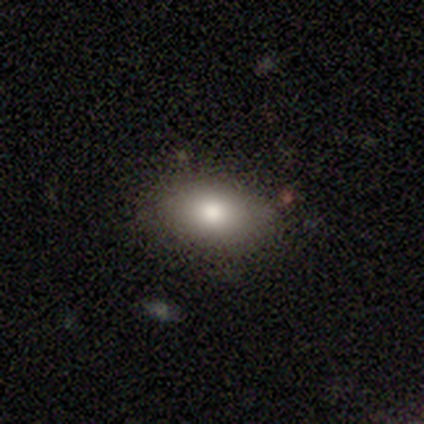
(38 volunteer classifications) Q: Smooth or featured?
A: smooth (76%); runner-up: featured or disk (18%)
Q: How rounded?
A: in between (90%); runner-up: round (7%)
Q: Merging?
A: none (86%); runner-up: minor disturbance (14%)